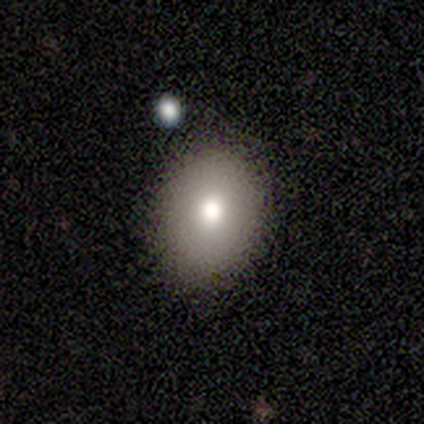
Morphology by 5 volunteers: Smooth or featured: smooth — 80% (star or artifact — 20%)
How rounded: round — 50% (tied with in between — 50%)
Merging: none — 75% (minor disturbance — 25%)